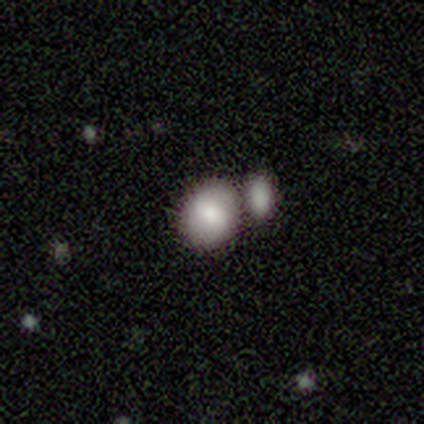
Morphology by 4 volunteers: A smooth galaxy with no disk features (100%) that is round (75%).

Vote fractions:
- Smooth or featured? smooth: 100% / featured or disk: 0% / star or artifact: 0%
- How rounded? round: 75% / in between: 25% / cigar-shaped: 0%
- Merging? none: 50% (tied) / merger: 50% (tied) / minor disturbance: 0% / major disturbance: 0%